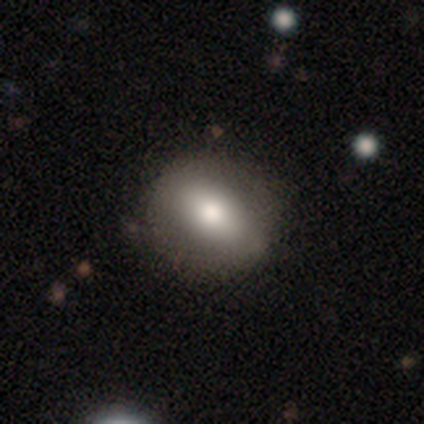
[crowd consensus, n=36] smooth_or_featured: smooth (p=0.61) [alt: featured or disk p=0.36]
how_rounded: in between (p=0.50) [alt: round p=0.41]
merging: none (p=0.60) [alt: minor disturbance p=0.11]